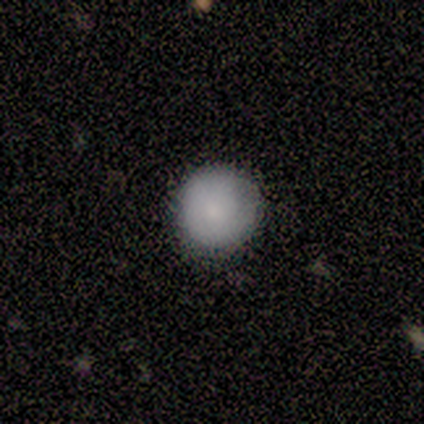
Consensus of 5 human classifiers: Consensus on every question: smooth or featured — smooth (100%); how rounded — round (100%); merging — none (100%).